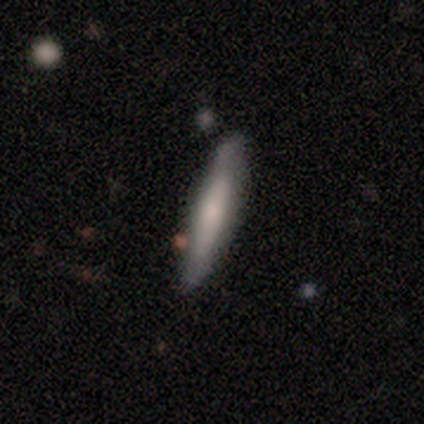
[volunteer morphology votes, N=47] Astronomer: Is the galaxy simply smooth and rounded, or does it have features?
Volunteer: smooth — 64%.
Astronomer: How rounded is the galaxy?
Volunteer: cigar-shaped — 87%.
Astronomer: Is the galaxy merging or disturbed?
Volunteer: none — 77%.